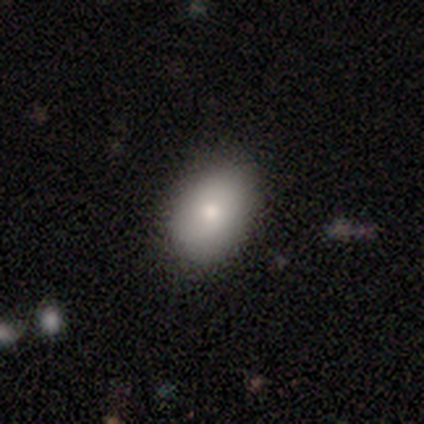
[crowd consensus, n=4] Smooth or featured: smooth — 100%
How rounded: in between — 75% (round — 25%)
Merging: none — 100%